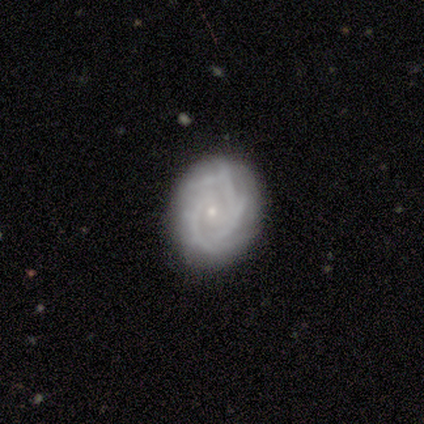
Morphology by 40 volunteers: Smooth or featured? featured or disk (82%)
Edge-on disk? no (97%)
Bar? no (72%)
Spiral arms? yes (94%)
Spiral winding? medium (50%)
Spiral arm count? 3 (30%, tied with can't tell)
Bulge size? small (84%)
Merging? none (67%)